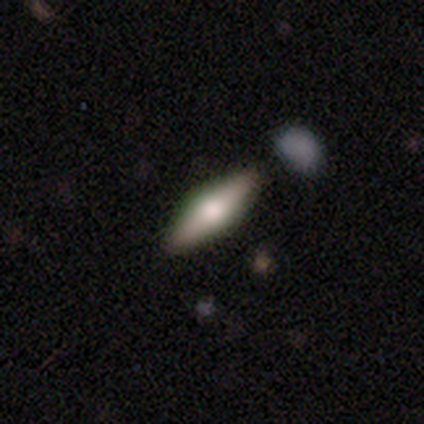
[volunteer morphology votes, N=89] Volunteers were most divided on "smooth or featured": featured or disk: 49%, smooth: 42%, star or artifact: 9%. More confident: edge-on disk — yes (95%); edge-on bulge — rounded (90%); merging — none (84%).